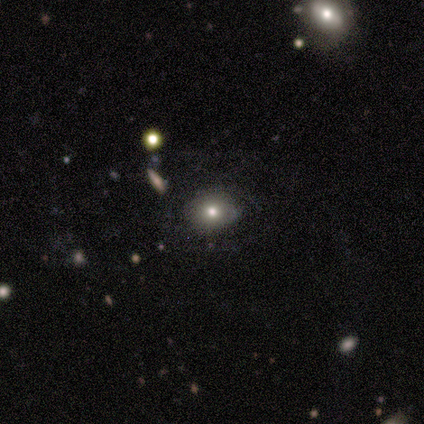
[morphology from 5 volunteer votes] This is marginally a smooth galaxy (40%, tied with featured or disk). How rounded: possibly round (50%, tied with in between). Merging: possibly none (50%).